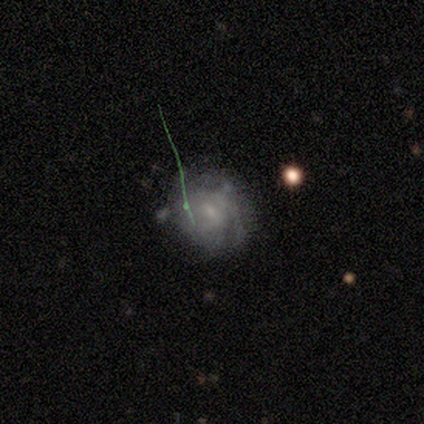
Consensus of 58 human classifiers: Q: Smooth or featured?
A: featured or disk (72%); runner-up: smooth (17%)
Q: Edge-on disk?
A: no (100%)
Q: Bar?
A: weak (55%); runner-up: no (38%)
Q: Spiral arms?
A: yes (76%); runner-up: no (24%)
Q: Spiral winding?
A: tight (50%); runner-up: medium (44%)
Q: Spiral arm count?
A: can't tell (56%); runner-up: 2 (22%)
Q: Bulge size?
A: small (62%); runner-up: moderate (24%)
Q: Merging?
A: none (56%); runner-up: minor disturbance (33%)